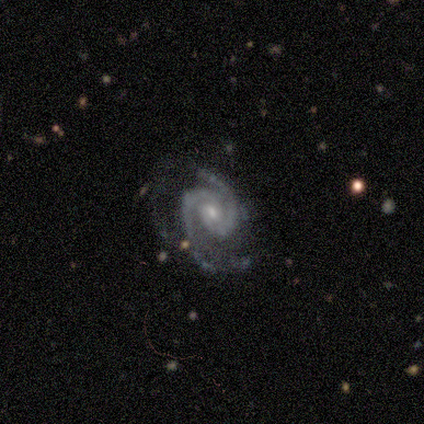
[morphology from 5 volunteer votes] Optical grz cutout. It shows a featured or disk galaxy (100%) with a weak bar (60%), 2 (80%) tight (80%) spiral arms (100%) and a moderate central bulge (80%). Merging: none (60%).